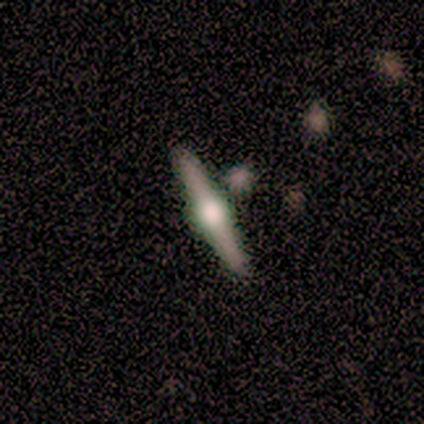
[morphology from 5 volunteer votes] Smooth or featured? 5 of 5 (100%) said featured or disk. Edge-on disk? 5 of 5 (100%) said yes. Edge-on bulge? 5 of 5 (100%) said rounded. Merging? 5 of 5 (100%) said none.